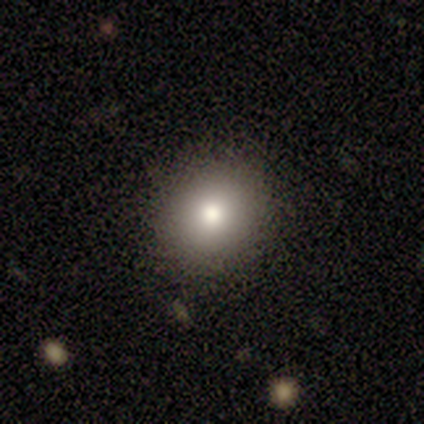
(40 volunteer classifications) Smooth or featured?
  - smooth: 80% *
  - featured or disk: 12%
  - star or artifact: 8%
How rounded?
  - round: 75% *
  - in between: 25%
  - cigar-shaped: 0%
Merging?
  - none: 89% *
  - minor disturbance: 11%
  - major disturbance: 0%
  - merger: 0%